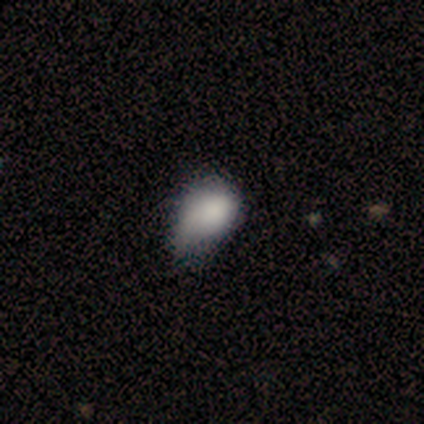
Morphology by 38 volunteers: Smooth or featured: smooth — 76% (featured or disk — 16%)
How rounded: in between — 90% (round — 10%)
Merging: minor disturbance — 49% (none — 11%)